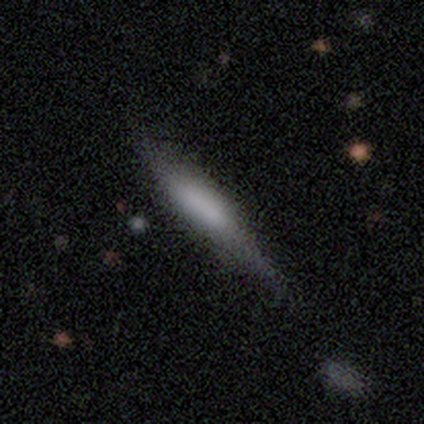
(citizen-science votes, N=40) Overall: smooth (52%; featured or disk 42%). How rounded: cigar-shaped (71%). Merging: none (39%; minor disturbance 24%).